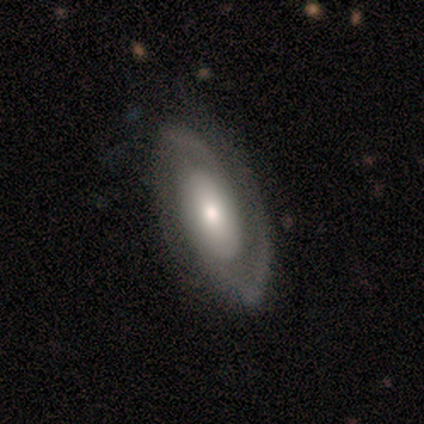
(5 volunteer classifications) Smooth or featured? 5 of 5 (100%) said featured or disk. Edge-on disk? 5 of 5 (100%) said no. Bar? 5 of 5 (100%) said no. Spiral arms? 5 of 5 (100%) said yes. Spiral winding? 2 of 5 (40%, tied with medium) said tight. Spiral arm count? 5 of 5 (100%) said 2. Bulge size? 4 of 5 (80%) said small. Merging? 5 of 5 (100%) said none.